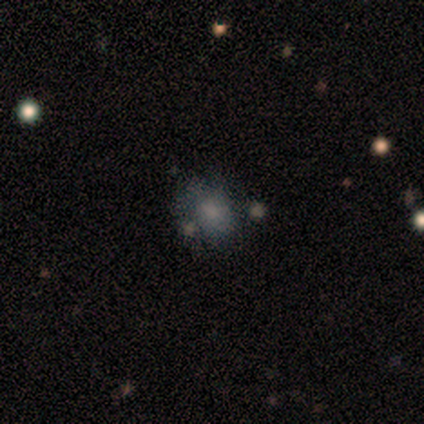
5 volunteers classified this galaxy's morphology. Q: Smooth or featured?
A: smooth (80%); runner-up: star or artifact (20%)
Q: How rounded?
A: round (50%); tied with: in between (50%)
Q: Merging?
A: none (75%); runner-up: minor disturbance (25%)